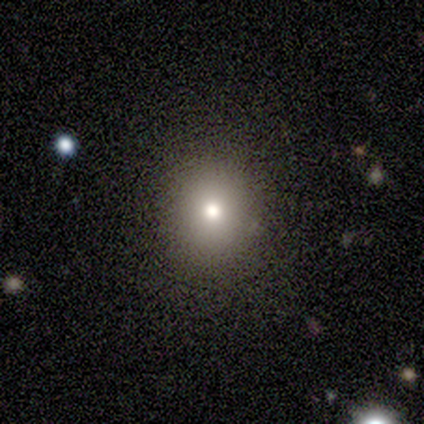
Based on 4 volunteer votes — Smooth or featured? smooth (75%)
How rounded? round (100%)
Merging? none (100%)